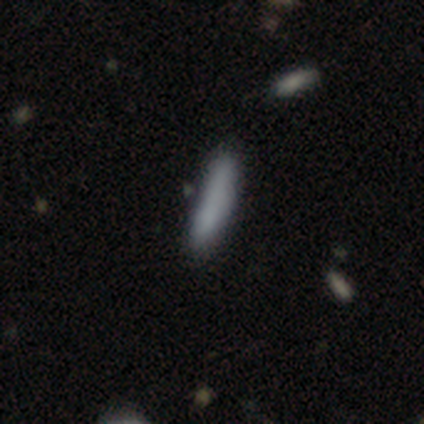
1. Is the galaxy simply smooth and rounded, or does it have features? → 81% smooth, 10% featured or disk, 10% star or artifact.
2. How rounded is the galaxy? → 91% cigar-shaped, 9% in between, 0% round.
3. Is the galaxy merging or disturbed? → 76% none, 24% minor disturbance, 0% major disturbance, 0% merger.